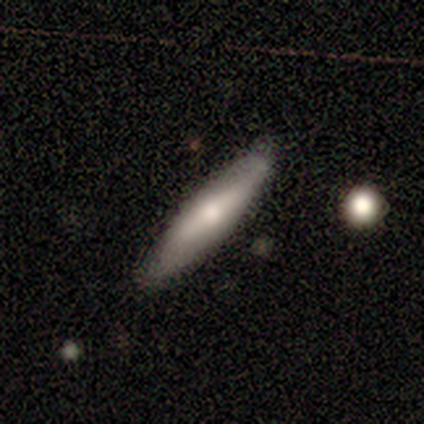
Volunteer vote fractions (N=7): Smooth or featured? smooth (86%)
How rounded? cigar-shaped (83%)
Merging? none (86%)